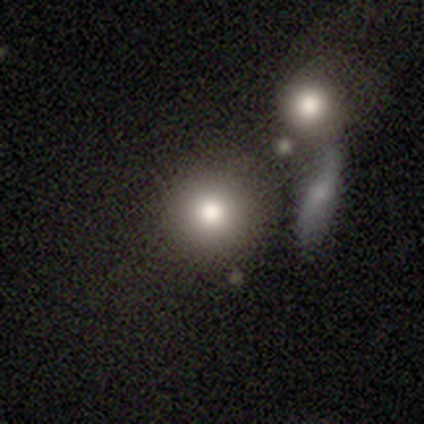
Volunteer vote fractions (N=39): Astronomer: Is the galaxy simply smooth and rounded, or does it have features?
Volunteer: smooth — 69%.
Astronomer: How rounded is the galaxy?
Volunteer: round — 96%.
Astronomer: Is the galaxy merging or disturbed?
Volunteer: none — 70%.